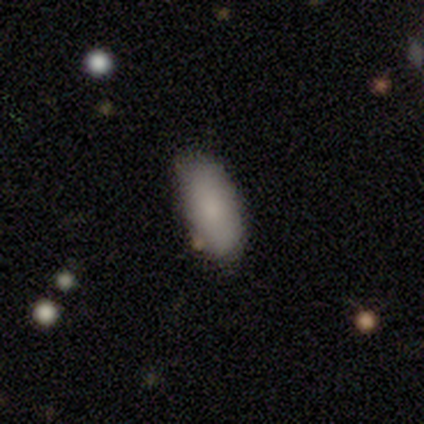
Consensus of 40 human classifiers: Smooth or featured?
  - smooth: 90% *
  - featured or disk: 5%
  - star or artifact: 5%
How rounded?
  - in between: 92% *
  - cigar-shaped: 8%
  - round: 0%
Merging?
  - none: 63% *
  - minor disturbance: 13%
  - major disturbance: 0%
  - merger: 0%